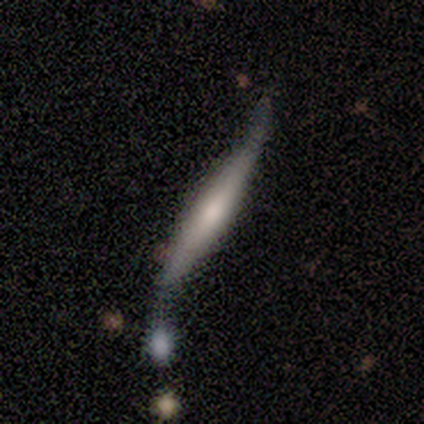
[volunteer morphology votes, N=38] Smooth or featured? featured or disk (55%)
Edge-on disk? yes (76%)
Edge-on bulge? rounded (50%)
Merging? none (33%, tied with merger)